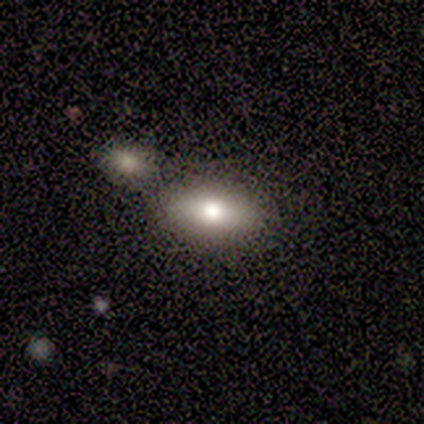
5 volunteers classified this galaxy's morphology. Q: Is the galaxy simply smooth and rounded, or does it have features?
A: smooth — 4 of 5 (80%).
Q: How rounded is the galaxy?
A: in between — 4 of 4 (100%).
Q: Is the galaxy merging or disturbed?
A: none — 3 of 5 (60%).